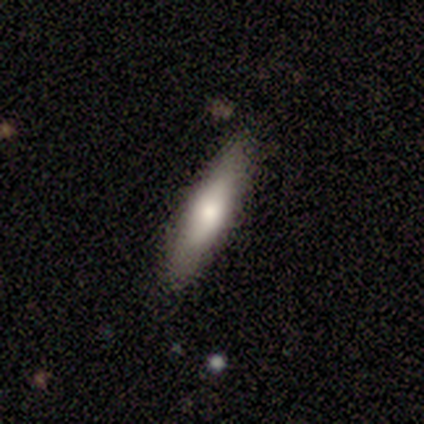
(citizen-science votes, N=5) Morphology: type=smooth (100%); roundness=cigar-shaped (100%); merging=none (100%).